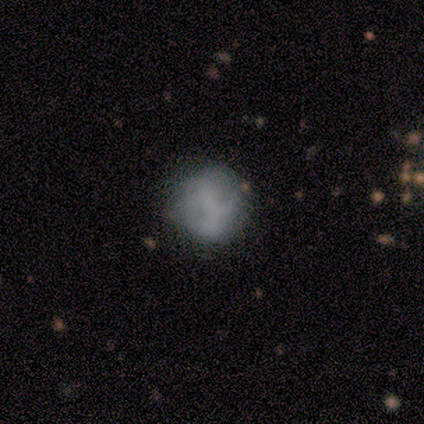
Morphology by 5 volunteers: Smooth or featured: smooth — 60% (featured or disk — 40%)
How rounded: round — 100%
Merging: none — 60% (minor disturbance — 20%)